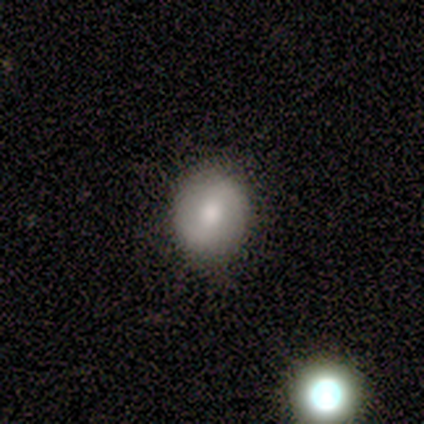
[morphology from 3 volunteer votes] This is marginally a smooth galaxy (33%, tied with featured or disk and star or artifact). How rounded: clearly round (100%). Merging: clearly none (100%).